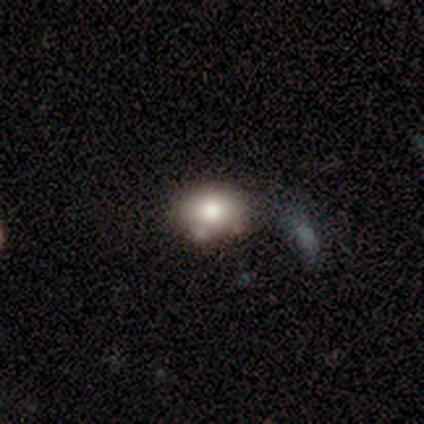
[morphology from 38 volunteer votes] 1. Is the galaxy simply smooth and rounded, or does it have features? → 76% smooth, 13% featured or disk, 11% star or artifact.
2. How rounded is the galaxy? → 69% in between, 31% round, 0% cigar-shaped.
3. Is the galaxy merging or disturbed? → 65% none, 15% minor disturbance, 12% merger, 9% major disturbance.